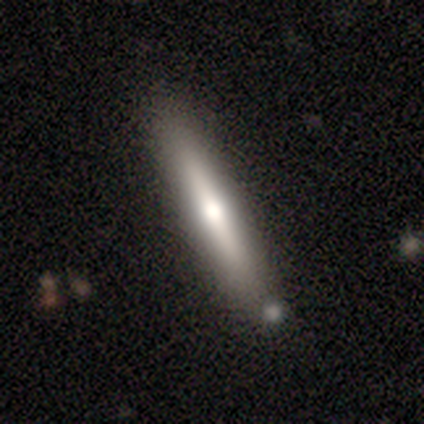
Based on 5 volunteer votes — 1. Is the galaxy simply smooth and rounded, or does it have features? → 80% smooth, 20% featured or disk, 0% star or artifact.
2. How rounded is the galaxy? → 100% cigar-shaped, 0% round, 0% in between.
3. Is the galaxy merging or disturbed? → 40% none (tied), 40% minor disturbance (tied), 20% merger, 0% major disturbance.